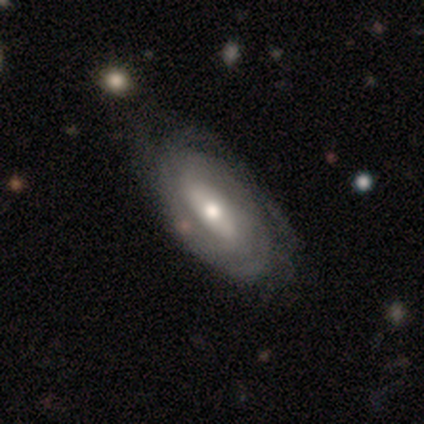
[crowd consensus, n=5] smooth-or-featured: featured or disk: 100% | smooth: 0% | star or artifact: 0%
  disk-edge-on: no: 100% | yes: 0%
    bar: strong: 40% (tied) | no: 40% (tied) | weak: 20%
    has-spiral-arms: yes: 80% | no: 20%
      spiral-winding: tight: 100% | medium: 0% | loose: 0%
      spiral-arm-count: can't tell: 50% | 2: 25% | 3: 25% | 1: 0% | 4: 0% | more than 4: 0%
    bulge-size: moderate: 60% | large: 20% | small: 20% | dominant: 0% | none: 0%
  merging: none: 60% | minor disturbance: 40% | major disturbance: 0% | merger: 0%